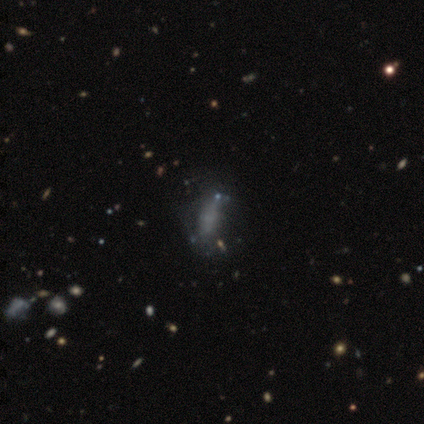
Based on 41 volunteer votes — This appears to be a smooth galaxy with no disk features (46%) that is cigar-shaped (53%). Merging: none (31%).